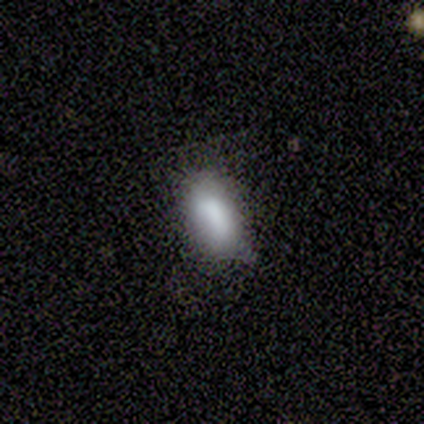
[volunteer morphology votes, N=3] Smooth or featured: smooth — 100%
How rounded: in between — 100%
Merging: none — 33% (tied with minor disturbance — 33%; major disturbance — 33%)